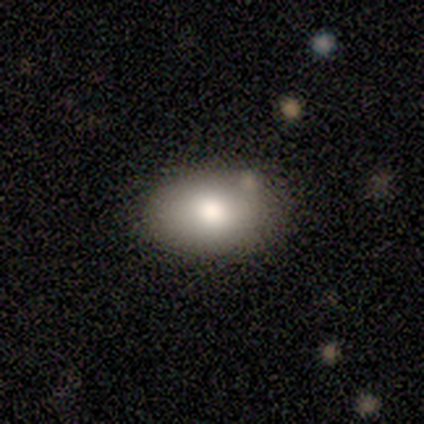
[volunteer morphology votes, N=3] Smooth or featured? 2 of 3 (67%) said smooth. How rounded? 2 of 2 (100%) said in between. Merging? 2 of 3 (67%) said none.